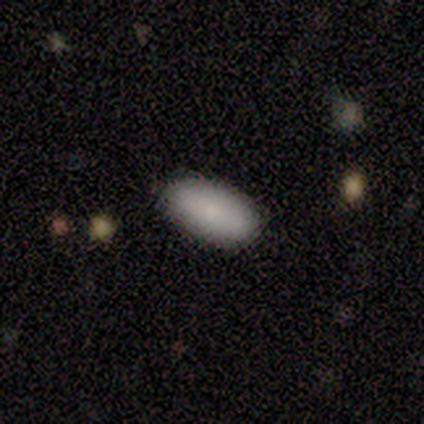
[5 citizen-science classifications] Smooth or featured?
  - smooth: 100% *
  - featured or disk: 0%
  - star or artifact: 0%
How rounded?
  - in between: 100% *
  - round: 0%
  - cigar-shaped: 0%
Merging?
  - none: 100% *
  - minor disturbance: 0%
  - major disturbance: 0%
  - merger: 0%